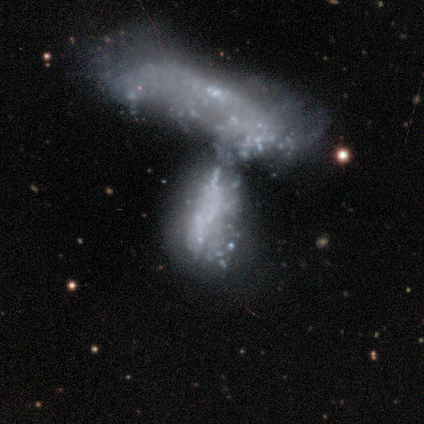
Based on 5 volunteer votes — featured or disk 60%, smooth 40%, star or artifact 0%. Down the decision tree: edge-on disk — no (100%); bar — no (100%); spiral arms — no (100%); bulge size — none (100%); merging — merger (100%).